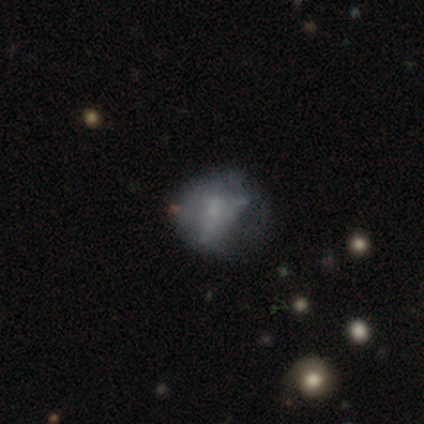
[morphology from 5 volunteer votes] This is likely a smooth galaxy (60%). How rounded: likely in between (67%). Merging: possibly minor disturbance (50%).